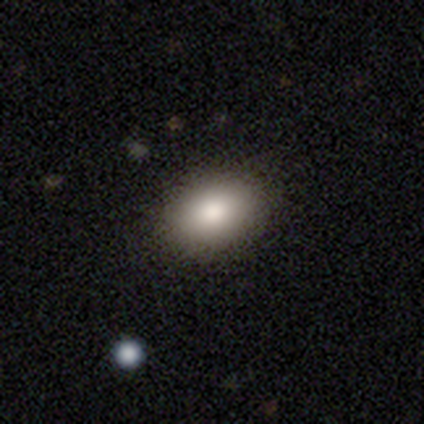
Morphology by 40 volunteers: Q: Smooth or featured?
A: smooth (82%); runner-up: star or artifact (10%)
Q: How rounded?
A: in between (79%); runner-up: round (21%)
Q: Merging?
A: none (83%); runner-up: minor disturbance (14%)